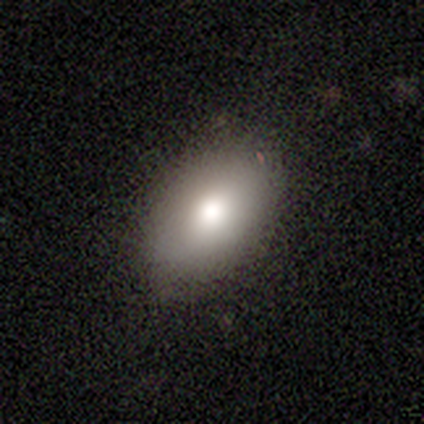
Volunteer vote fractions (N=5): Overall: smooth (80%). How rounded: in between (100%). Merging: none (100%).